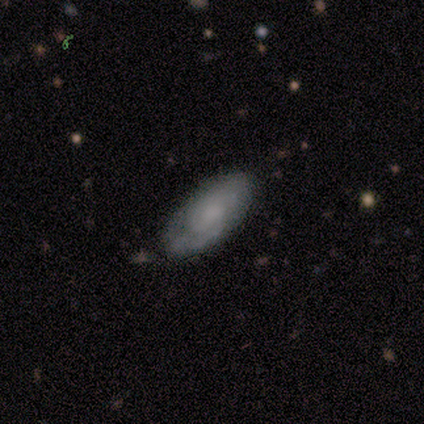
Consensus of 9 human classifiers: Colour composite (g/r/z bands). It shows a featured or disk galaxy (67%) with no bar (67%), tight (100%) spiral arms (67%) and no central bulge (67%). Merging: none (89%).